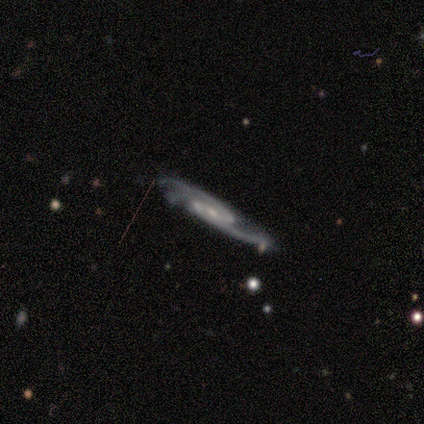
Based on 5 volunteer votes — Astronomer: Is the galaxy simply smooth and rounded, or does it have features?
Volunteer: featured or disk — 100%.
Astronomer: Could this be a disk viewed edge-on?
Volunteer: no — 100%.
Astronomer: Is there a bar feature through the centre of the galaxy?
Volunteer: no — 60%.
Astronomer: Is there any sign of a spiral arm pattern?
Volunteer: yes — 100%.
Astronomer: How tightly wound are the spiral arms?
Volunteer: loose — 60% (runner-up: medium, 40%).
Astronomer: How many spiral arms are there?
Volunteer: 2 — 100%.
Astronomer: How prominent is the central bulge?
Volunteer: moderate — 40%, tied with none at 40%.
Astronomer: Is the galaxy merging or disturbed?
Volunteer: major disturbance — 60%.